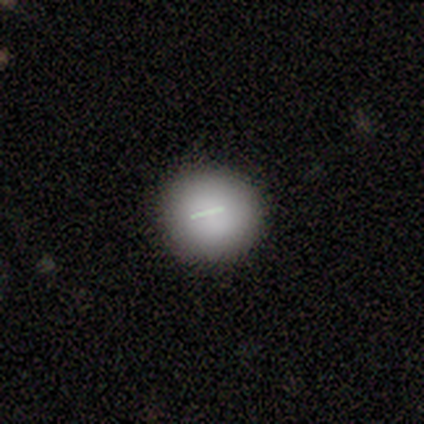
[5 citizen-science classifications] Volunteers were most divided on "smooth or featured": smooth: 60%, featured or disk: 40%, star or artifact: 0%. More confident: how rounded — round (67%); merging — minor disturbance (60%).